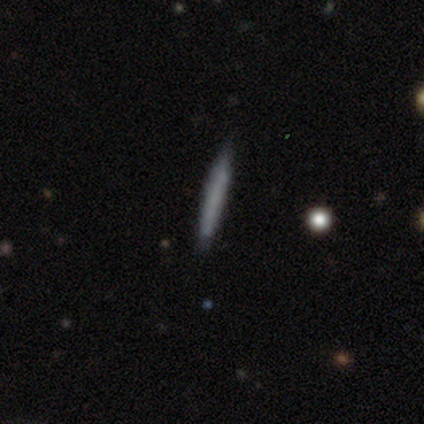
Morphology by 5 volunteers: A smooth galaxy with no disk features (60%) that is cigar-shaped (100%).

Vote fractions:
- Smooth or featured? smooth: 60% / featured or disk: 40% / star or artifact: 0%
- How rounded? cigar-shaped: 100% / round: 0% / in between: 0%
- Merging? none: 100% / minor disturbance: 0% / major disturbance: 0% / merger: 0%